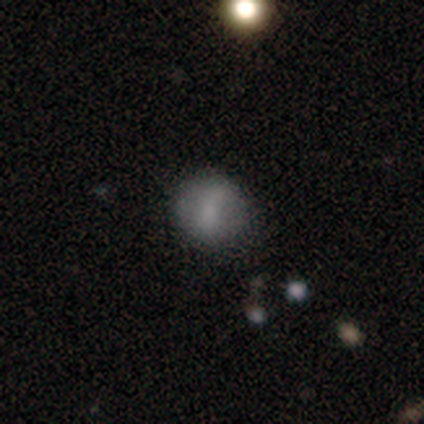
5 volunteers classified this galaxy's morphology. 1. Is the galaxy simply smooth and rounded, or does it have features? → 60% smooth, 40% featured or disk, 0% star or artifact.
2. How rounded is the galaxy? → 100% round, 0% in between, 0% cigar-shaped.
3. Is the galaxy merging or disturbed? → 80% none, 20% minor disturbance, 0% major disturbance, 0% merger.